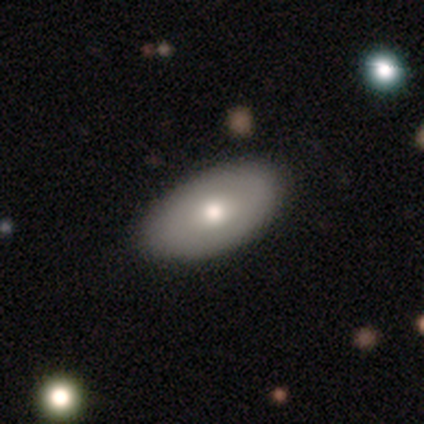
smooth 75%, featured or disk 25%, star or artifact 0%. Down the decision tree: how rounded — in between (100%); merging — none (75%).